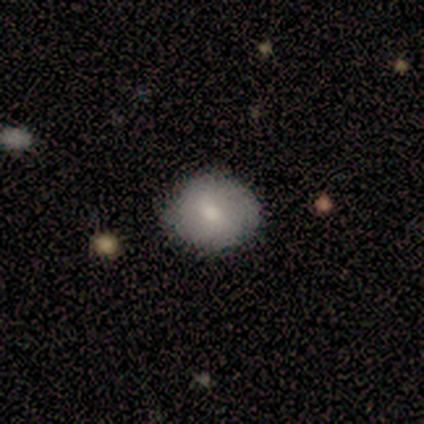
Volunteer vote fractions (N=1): featured or disk 100%, smooth 0%, star or artifact 0%. Down the decision tree: edge-on disk — no (100%); bar — strong (100%); spiral arms — yes (100%); spiral arm count — 2 (100%); spiral winding — tight (100%); bulge size — moderate (100%); merging — none (100%).